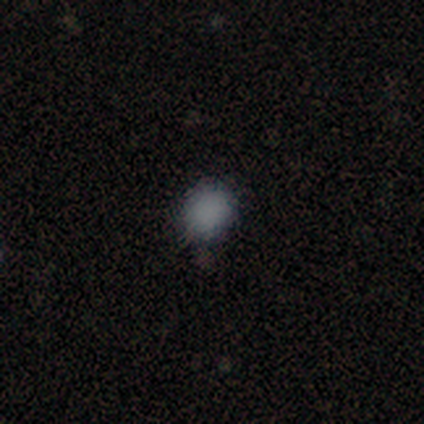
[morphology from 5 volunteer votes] smooth 100%, featured or disk 0%, star or artifact 0%. Down the decision tree: how rounded — round (80%); merging — none (80%).